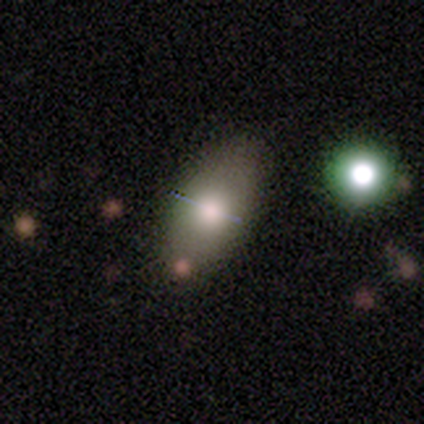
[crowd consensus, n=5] Smooth or featured? smooth (100%)
How rounded? in between (100%)
Merging? none (100%)